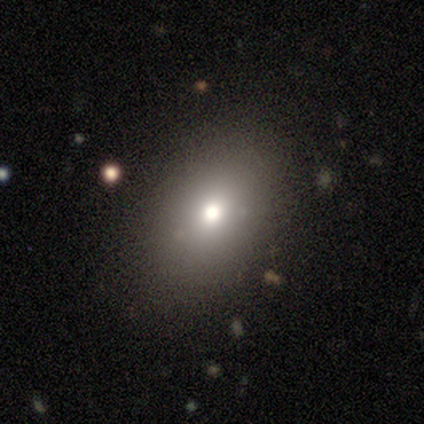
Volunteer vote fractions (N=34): smooth 74%, featured or disk 21%, star or artifact 6%. Down the decision tree: how rounded — in between (76%); merging — none (81%).